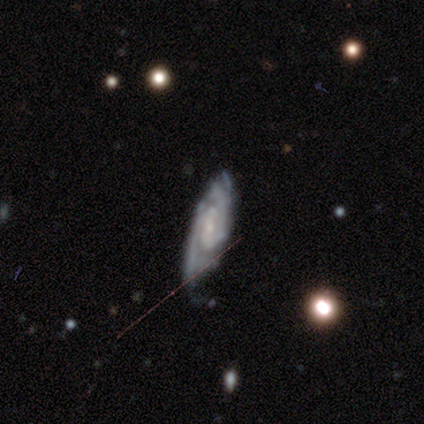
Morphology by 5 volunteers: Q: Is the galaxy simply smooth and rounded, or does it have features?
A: featured or disk — 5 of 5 (100%).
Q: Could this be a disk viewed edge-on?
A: no — 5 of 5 (100%).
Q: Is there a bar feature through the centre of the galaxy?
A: weak — 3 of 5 (60%).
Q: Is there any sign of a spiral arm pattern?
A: yes — 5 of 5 (100%).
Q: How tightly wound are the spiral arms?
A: tight — 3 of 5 (60%).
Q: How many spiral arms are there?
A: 2 — 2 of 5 (40%, tied with can't tell).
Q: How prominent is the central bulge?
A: small — 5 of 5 (100%).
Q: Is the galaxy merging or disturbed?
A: none — 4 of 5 (80%).